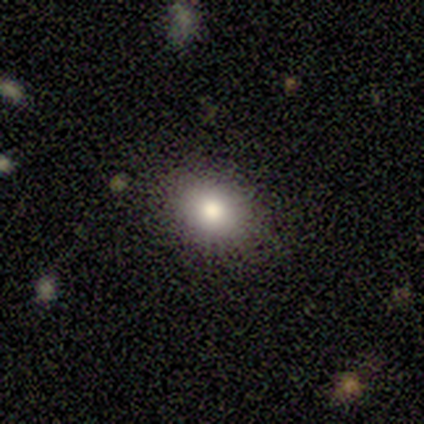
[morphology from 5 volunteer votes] Overall: smooth (100%). How rounded: round (80%). Merging: none (100%).